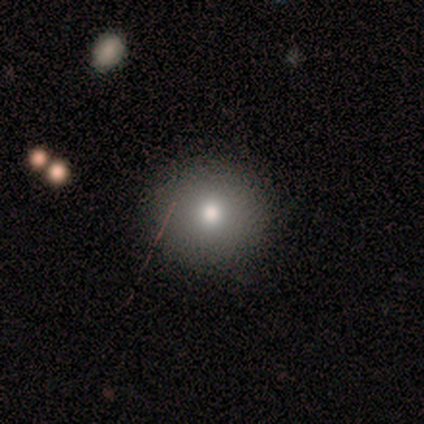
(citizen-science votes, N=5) smooth 60%, featured or disk 20%, star or artifact 20%. Down the decision tree: how rounded — round (67%); merging — none (100%).